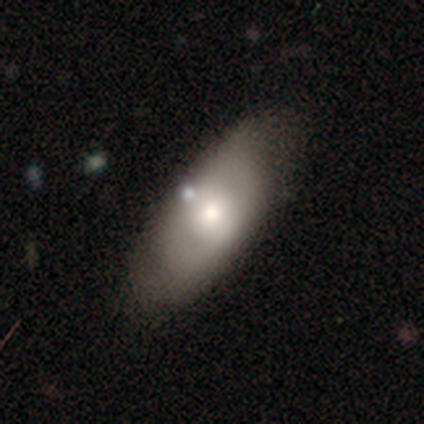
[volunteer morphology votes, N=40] smooth-or-featured: smooth: 55% | featured or disk: 35% | star or artifact: 10%
  how-rounded: in between: 82% | cigar-shaped: 14% | round: 5%
  merging: none: 53% | minor disturbance: 31% | major disturbance: 11% | merger: 6%